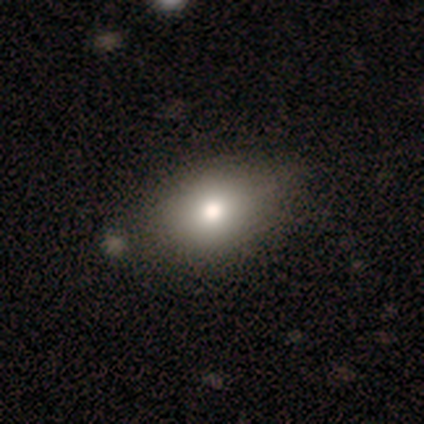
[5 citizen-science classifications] Smooth or featured? smooth (60%)
How rounded? in between (67%)
Merging? none (100%)